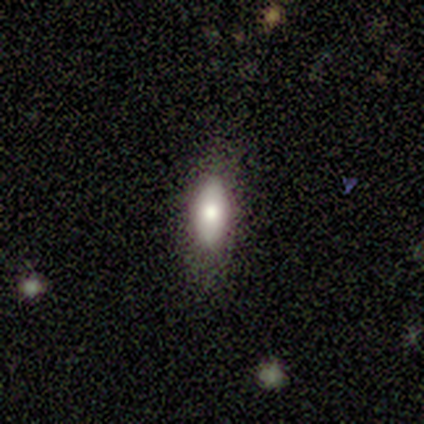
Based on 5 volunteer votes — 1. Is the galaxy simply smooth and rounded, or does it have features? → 60% smooth, 20% featured or disk, 20% star or artifact.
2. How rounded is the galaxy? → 100% in between, 0% round, 0% cigar-shaped.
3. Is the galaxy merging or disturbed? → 50% none, 25% minor disturbance, 25% major disturbance, 0% merger.